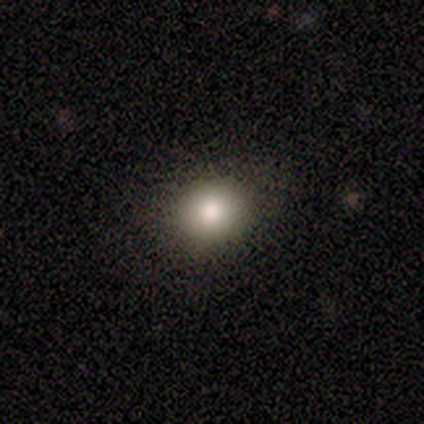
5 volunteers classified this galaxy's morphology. Overall: smooth (60%; featured or disk 20%). How rounded: round (100%). Merging: none (100%).